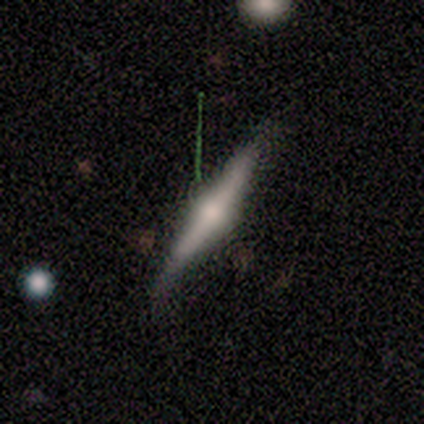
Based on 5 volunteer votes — This is clearly a featured or disk galaxy (80%). It is clearly viewed edge-on (100%). Edge-on bulge: clearly rounded (100%). Merging: clearly none (80%).